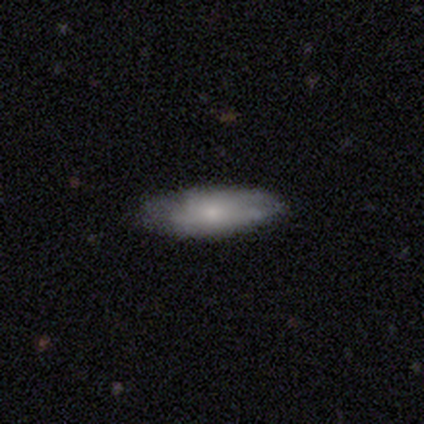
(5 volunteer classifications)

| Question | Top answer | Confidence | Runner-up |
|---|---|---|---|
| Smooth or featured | smooth | 100% | — |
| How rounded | cigar-shaped | 60% | in between (40%) |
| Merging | none | 80% | major disturbance (20%) |